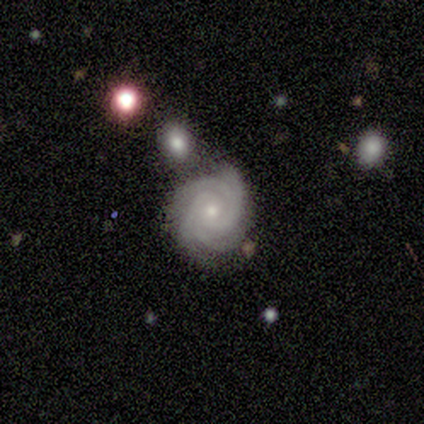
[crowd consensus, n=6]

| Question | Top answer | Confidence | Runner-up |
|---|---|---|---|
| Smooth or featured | featured or disk | 100% | — |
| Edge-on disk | no | 100% | — |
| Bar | no | 83% | weak (17%) |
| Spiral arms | yes | 100% | — |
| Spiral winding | tight | 100% | — |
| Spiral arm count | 4 | 83% | 2 (17%) |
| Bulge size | small | 83% | moderate (17%) |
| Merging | none | 83% | minor disturbance (17%) |